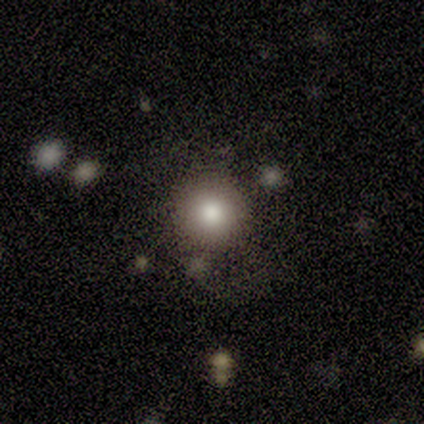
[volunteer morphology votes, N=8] smooth-or-featured: smooth: 88% | star or artifact: 12% | featured or disk: 0%
  how-rounded: round: 100% | in between: 0% | cigar-shaped: 0%
  merging: none: 86% | minor disturbance: 14% | major disturbance: 0% | merger: 0%